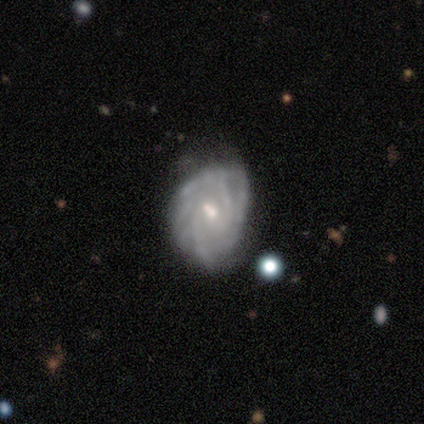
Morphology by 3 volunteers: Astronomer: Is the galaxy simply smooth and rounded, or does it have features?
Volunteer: featured or disk — 100%.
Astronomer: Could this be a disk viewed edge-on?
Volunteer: no — 100%.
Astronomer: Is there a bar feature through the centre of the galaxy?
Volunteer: weak — 67%.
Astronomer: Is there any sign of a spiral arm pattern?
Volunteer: yes — 100%.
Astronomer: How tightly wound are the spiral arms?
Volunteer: tight — 33%, tied with medium and loose at 33%.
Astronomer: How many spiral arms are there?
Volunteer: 3 — 33%, tied with more than 4 and can't tell at 33%.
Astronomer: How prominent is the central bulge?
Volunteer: small — 100%.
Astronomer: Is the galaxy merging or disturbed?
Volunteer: none — 100%.